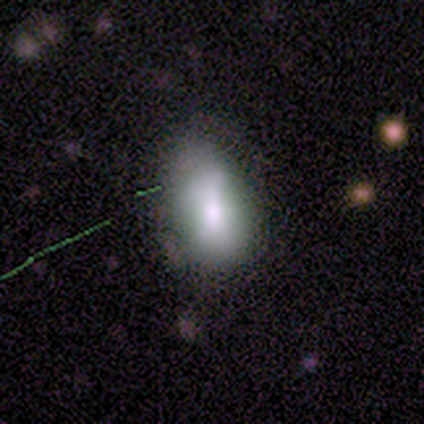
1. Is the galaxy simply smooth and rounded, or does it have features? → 100% smooth, 0% featured or disk, 0% star or artifact.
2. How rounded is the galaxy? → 100% in between, 0% round, 0% cigar-shaped.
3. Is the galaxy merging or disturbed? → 80% minor disturbance, 20% none, 0% major disturbance, 0% merger.